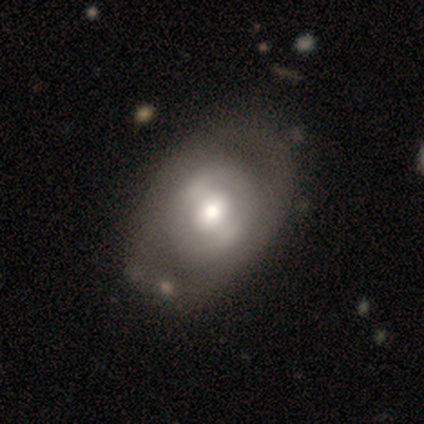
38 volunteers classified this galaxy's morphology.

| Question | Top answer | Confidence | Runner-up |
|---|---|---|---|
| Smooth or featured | featured or disk | 79% | smooth (21%) |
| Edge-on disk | no | 100% | — |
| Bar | strong | 37% | tied: weak (37%) |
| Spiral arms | no | 70% | yes (30%) |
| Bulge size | moderate | 63% | large (30%) |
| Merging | none | 34% | minor disturbance (11%) |